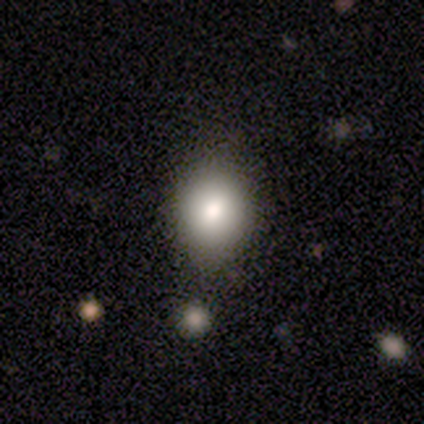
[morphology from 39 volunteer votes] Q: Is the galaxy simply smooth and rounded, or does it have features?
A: smooth — 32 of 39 (82%).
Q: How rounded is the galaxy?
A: round — 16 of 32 (50%).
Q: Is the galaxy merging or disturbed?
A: none — 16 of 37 (43%).